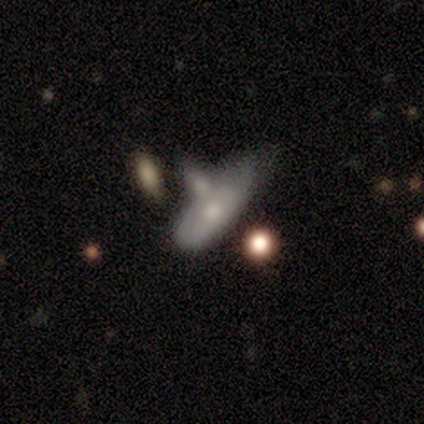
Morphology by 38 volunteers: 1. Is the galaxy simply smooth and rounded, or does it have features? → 50% featured or disk, 47% smooth, 3% star or artifact.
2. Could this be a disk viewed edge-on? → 79% no, 21% yes.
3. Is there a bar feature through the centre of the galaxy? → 100% no, 0% strong, 0% weak.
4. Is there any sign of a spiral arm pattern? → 87% no, 13% yes.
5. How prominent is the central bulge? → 53% moderate, 47% small, 0% dominant, 0% large, 0% none.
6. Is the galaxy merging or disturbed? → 38% merger, 30% minor disturbance, 8% none, 5% major disturbance.